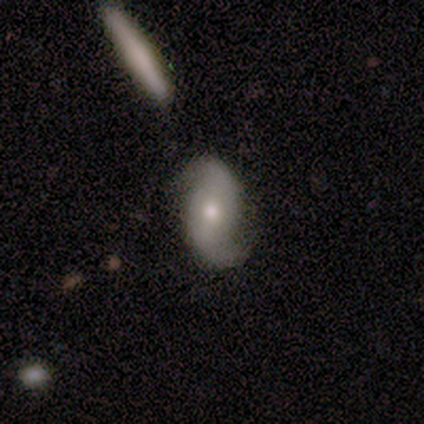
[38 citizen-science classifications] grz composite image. It shows a featured or disk galaxy (82%) with no bar (54%), 2 (100%) loose (67%) spiral arms (96%) and a moderate central bulge (68%). Merging: none (86%).